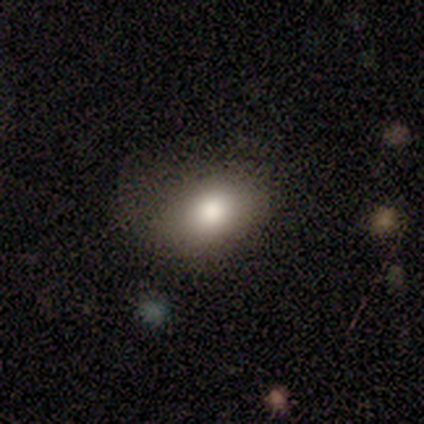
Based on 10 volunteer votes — A smooth galaxy with no disk features (70%) that is in between round and cigar-shaped (86%). Merging: none (78%).